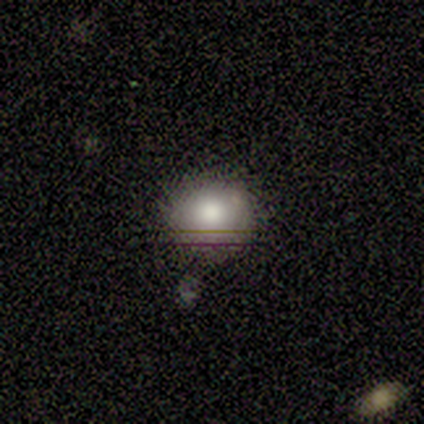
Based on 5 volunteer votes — smooth 100%, featured or disk 0%, star or artifact 0%. Down the decision tree: how rounded — round (100%); merging — none (100%).